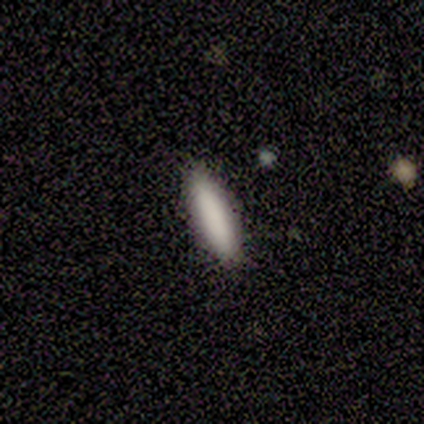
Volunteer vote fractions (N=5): Q: Smooth or featured?
A: smooth (80%); runner-up: featured or disk (20%)
Q: How rounded?
A: cigar-shaped (75%); runner-up: in between (25%)
Q: Merging?
A: none (80%); runner-up: minor disturbance (20%)